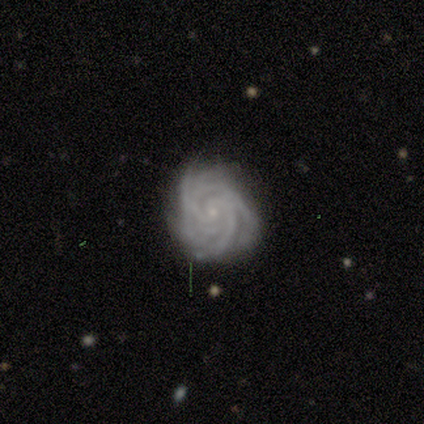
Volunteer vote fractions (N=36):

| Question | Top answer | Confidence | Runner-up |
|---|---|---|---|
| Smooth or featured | featured or disk | 97% | smooth (3%) |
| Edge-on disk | no | 100% | — |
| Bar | no | 80% | weak (11%) |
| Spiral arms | yes | 100% | — |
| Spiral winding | tight | 71% | medium (29%) |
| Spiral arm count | more than 4 | 34% | 3 (26%) |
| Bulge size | small | 100% | — |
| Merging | none | 75% | minor disturbance (22%) |